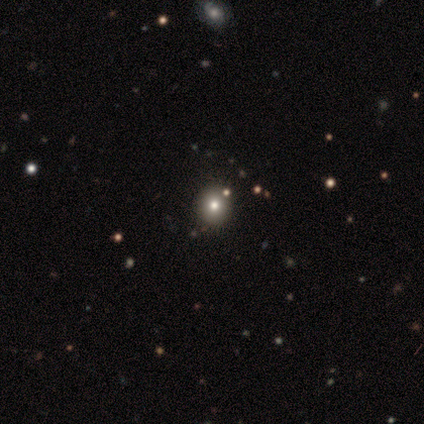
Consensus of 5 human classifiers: This appears to be a smooth galaxy with no disk features (80%) that is round (75%). Merging: none (50%).